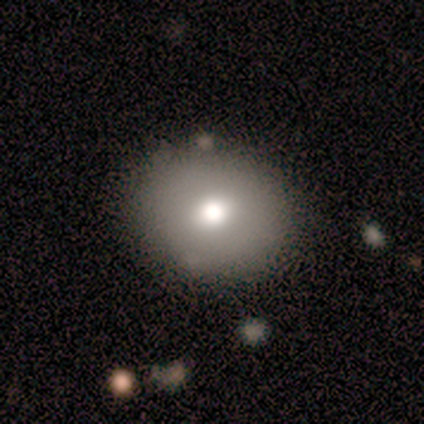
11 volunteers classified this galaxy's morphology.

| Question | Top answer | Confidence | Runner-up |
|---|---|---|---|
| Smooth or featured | smooth | 82% | featured or disk (18%) |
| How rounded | round | 78% | in between (22%) |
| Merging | none | 100% | — |